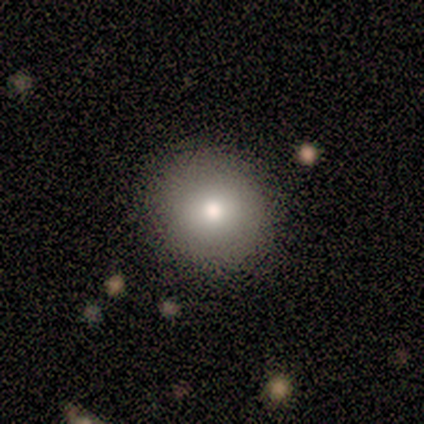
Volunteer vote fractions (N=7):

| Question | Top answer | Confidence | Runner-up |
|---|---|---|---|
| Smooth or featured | smooth | 100% | — |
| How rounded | round | 71% | in between (29%) |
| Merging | none | 100% | — |